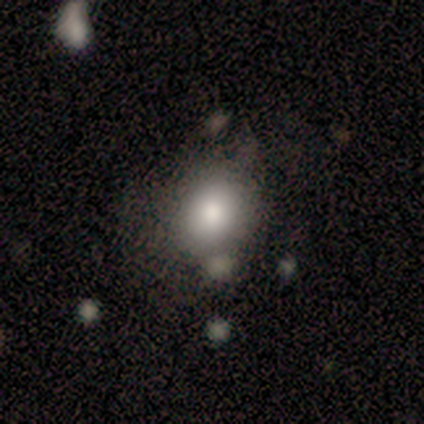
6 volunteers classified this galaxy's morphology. This appears to be a smooth galaxy with no disk features (67%) that is round (75%). Merging: minor disturbance (50%).